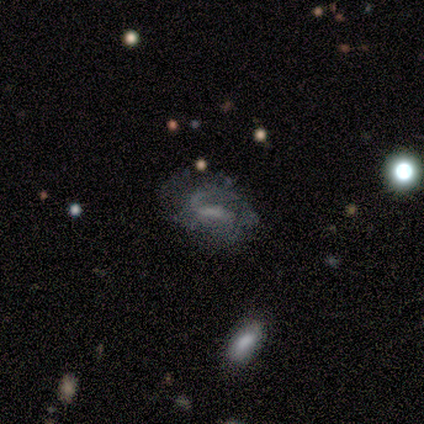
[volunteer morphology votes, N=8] smooth-or-featured: featured or disk: 75% | smooth: 12% | star or artifact: 12%
  disk-edge-on: no: 100% | yes: 0%
    bar: strong: 33% (tied) | weak: 33% (tied) | no: 33% (tied)
    has-spiral-arms: yes: 83% | no: 17%
      spiral-winding: medium: 80% | tight: 20% | loose: 0%
      spiral-arm-count: 1: 60% | can't tell: 40% | 2: 0% | 3: 0% | 4: 0% | more than 4: 0%
    bulge-size: small: 50% (tied) | none: 50% (tied) | dominant: 0% | large: 0% | moderate: 0%
  merging: none: 43% | minor disturbance: 29% | major disturbance: 29% | merger: 0%